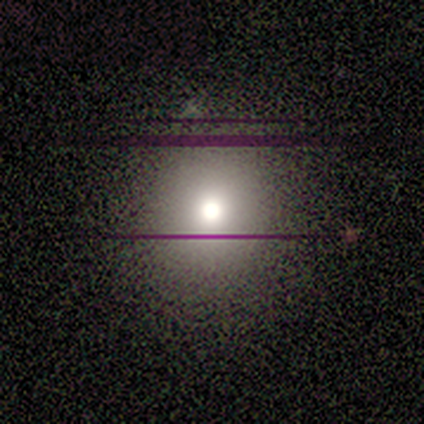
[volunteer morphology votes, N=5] Q: Smooth or featured?
A: star or artifact (60%); runner-up: smooth (20%)